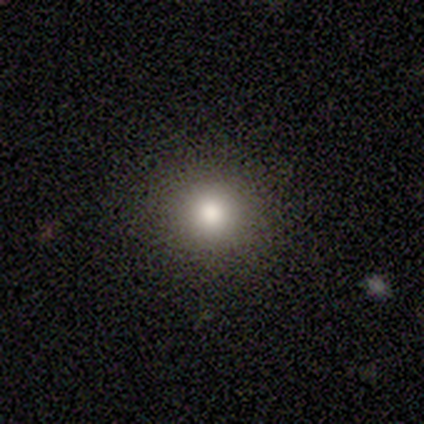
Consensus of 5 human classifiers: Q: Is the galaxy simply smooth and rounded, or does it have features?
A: smooth — 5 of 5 (100%).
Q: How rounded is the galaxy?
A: round — 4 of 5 (80%).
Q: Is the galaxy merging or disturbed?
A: none — 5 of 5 (100%).